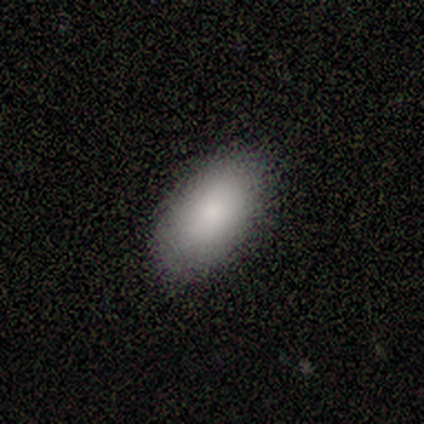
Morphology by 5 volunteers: Smooth or featured? 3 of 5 (60%) said smooth. How rounded? 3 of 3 (100%) said in between. Merging? 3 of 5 (60%) said none.